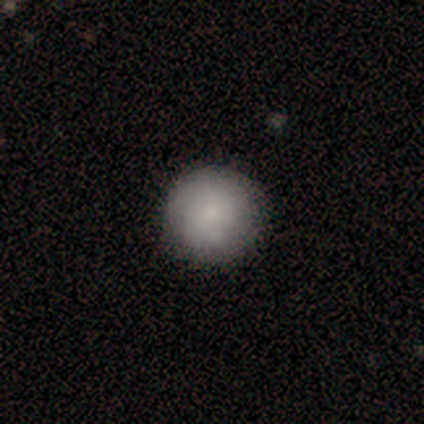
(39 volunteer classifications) Smooth or featured? 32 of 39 (82%) said smooth. How rounded? 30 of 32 (94%) said round. Merging? 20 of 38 (53%) said none.